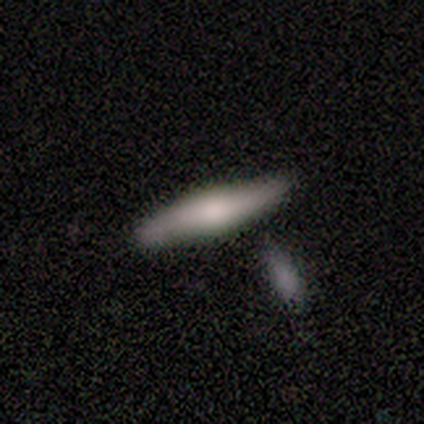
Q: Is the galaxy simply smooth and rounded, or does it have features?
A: featured or disk — 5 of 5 (100%).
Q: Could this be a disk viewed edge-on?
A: yes — 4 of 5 (80%).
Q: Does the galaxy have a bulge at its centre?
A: rounded — 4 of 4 (100%).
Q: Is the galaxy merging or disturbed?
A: none — 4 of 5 (80%).